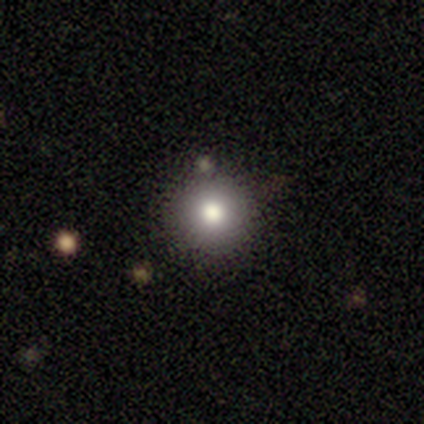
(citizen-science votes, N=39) A smooth galaxy with no disk features (74%) that is round (100%). Merging: none (94%).